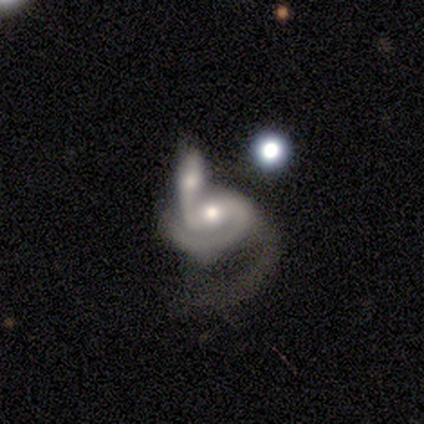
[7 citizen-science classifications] smooth_or_featured: featured or disk (p=0.86) [alt: star or artifact p=0.14]
disk_edge_on: no (p=1.00)
bar: no (p=0.67) [alt: strong p=0.17]
has_spiral_arms: yes (p=0.83) [alt: no p=0.17]
spiral_winding: medium (p=0.60) [alt: loose p=0.40]
spiral_arm_count: 2 (p=0.60) [alt: 1 p=0.40]
bulge_size: moderate (p=0.50) [tied with: small p=0.50]
merging: merger (p=0.67) [alt: major disturbance p=0.33]